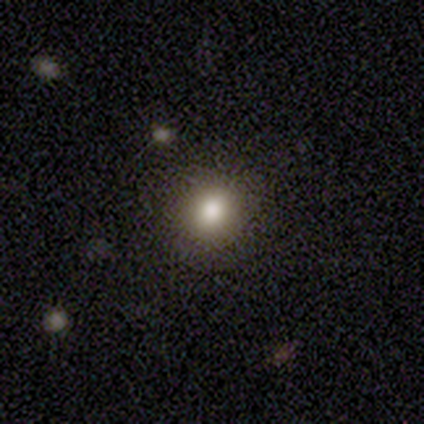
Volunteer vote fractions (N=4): smooth_or_featured: smooth (p=0.75) [alt: star or artifact p=0.25]
how_rounded: round (p=0.67) [alt: in between p=0.33]
merging: none (p=1.00)